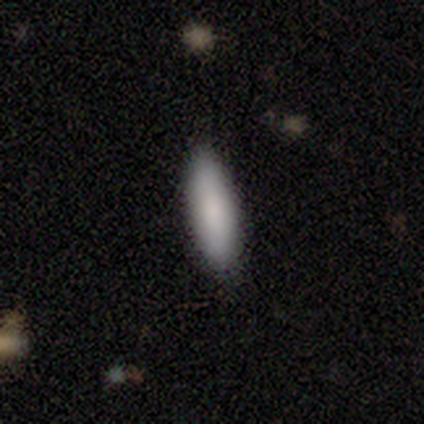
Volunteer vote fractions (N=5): smooth_or_featured: smooth (p=0.60) [alt: featured or disk p=0.20]
how_rounded: in between (p=0.67) [alt: cigar-shaped p=0.33]
merging: none (p=1.00)